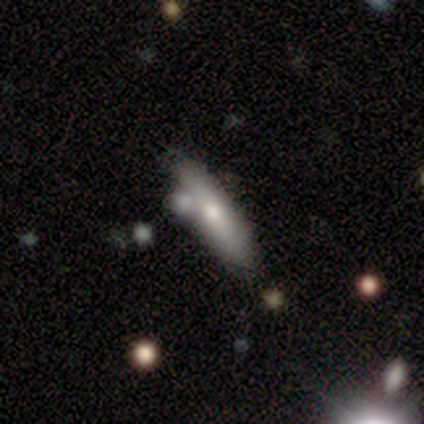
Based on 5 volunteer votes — Overall: smooth (60%; featured or disk 40%). How rounded: cigar-shaped (100%). Merging: none (80%).